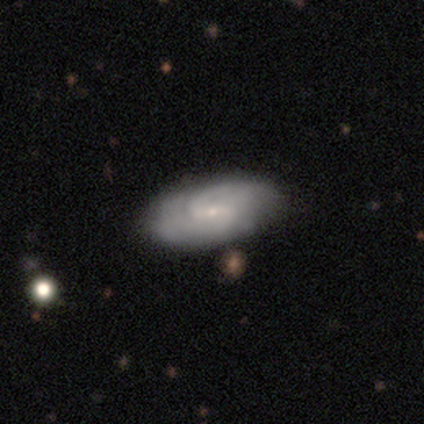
This appears to be a featured or disk galaxy (80%) with a weak bar (50%), 2 (50%, tied with can't tell) tight (50%) spiral arms (100%) and a small central bulge (100%). Merging: none (75%).